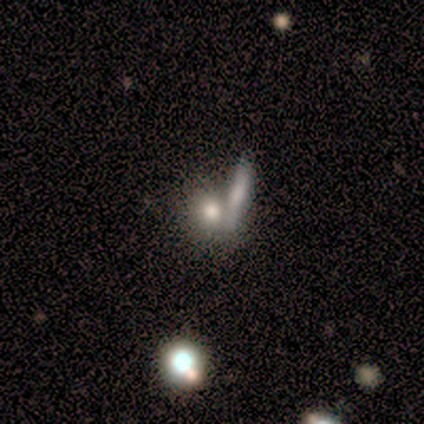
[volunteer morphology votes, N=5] type=smooth (60%); roundness=cigar-shaped (67%); merging=merger (75%).